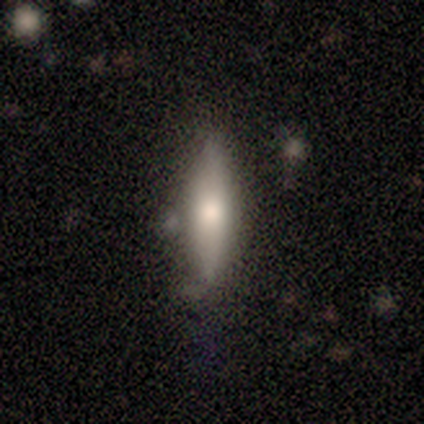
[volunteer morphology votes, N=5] A featured or disk galaxy (60%) viewed edge-on (67%) with a rounded central bulge (100%). Merging: none (100%).